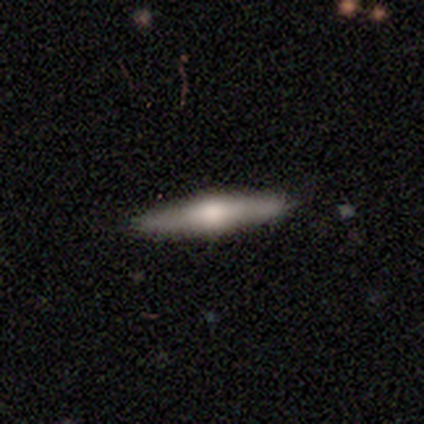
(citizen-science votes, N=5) A featured or disk galaxy (60%) viewed edge-on (100%) with a rounded central bulge (100%).

Vote fractions:
- Smooth or featured? featured or disk: 60% / smooth: 40% / star or artifact: 0%
- Edge-on disk? yes: 100% / no: 0%
- Edge-on bulge? rounded: 100% / boxy: 0% / none: 0%
- Merging? none: 100% / minor disturbance: 0% / major disturbance: 0% / merger: 0%